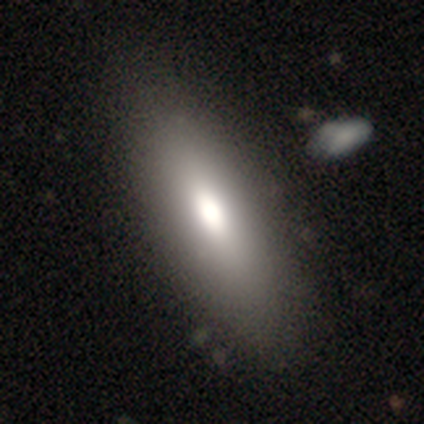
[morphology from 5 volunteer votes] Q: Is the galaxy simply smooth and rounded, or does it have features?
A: smooth — 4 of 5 (80%).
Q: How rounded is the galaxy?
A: in between — 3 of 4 (75%).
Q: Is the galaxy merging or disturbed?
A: none — 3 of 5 (60%).